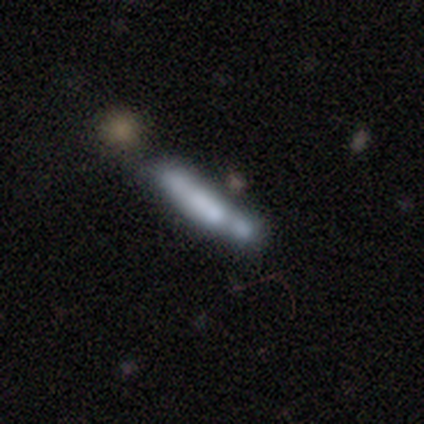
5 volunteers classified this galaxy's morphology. smooth_or_featured: featured or disk (p=0.60) [alt: smooth p=0.40]
disk_edge_on: no (p=0.67) [alt: yes p=0.33]
bar: no (p=1.00)
has_spiral_arms: no (p=1.00)
bulge_size: none (p=1.00)
merging: none (p=0.60) [alt: minor disturbance p=0.20]